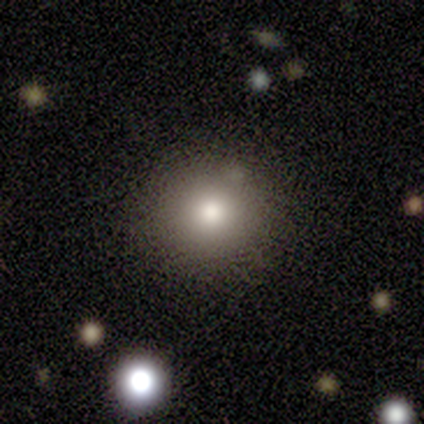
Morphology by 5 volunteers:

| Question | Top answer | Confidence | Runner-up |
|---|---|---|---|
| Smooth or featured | smooth | 80% | featured or disk (20%) |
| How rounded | round | 100% | — |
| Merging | none | 80% | minor disturbance (20%) |